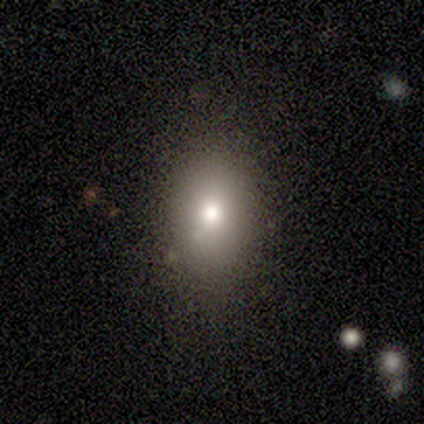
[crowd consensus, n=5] Smooth or featured? 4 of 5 (80%) said smooth. How rounded? 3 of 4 (75%) said in between. Merging? 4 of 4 (100%) said none.